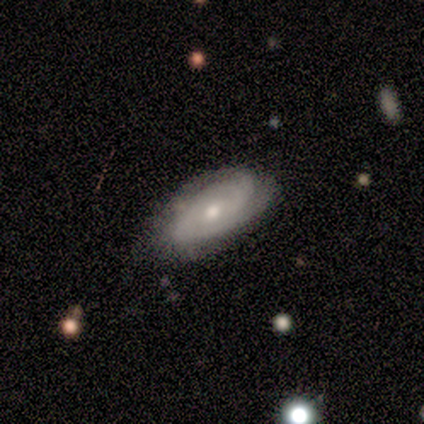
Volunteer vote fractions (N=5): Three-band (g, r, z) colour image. It shows a smooth galaxy with no disk features (60%) that is in between round and cigar-shaped (67%). Merging: none (60%).